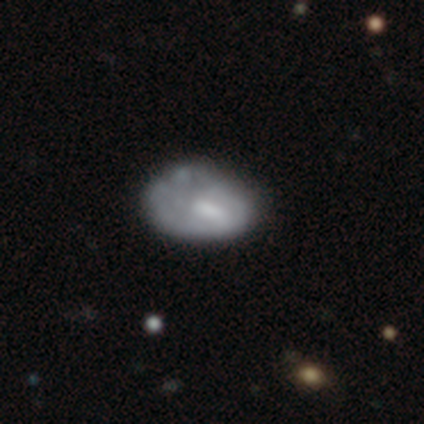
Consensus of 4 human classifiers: Smooth or featured? 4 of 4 (100%) said smooth. How rounded? 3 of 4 (75%) said in between. Merging? 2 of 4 (50%) said none.